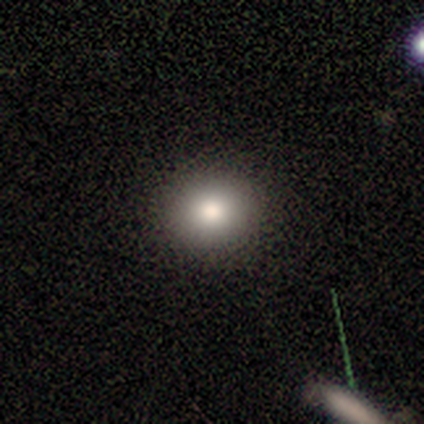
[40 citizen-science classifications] This appears to be a smooth galaxy with no disk features (82%) that is round (82%). Merging: none (92%).